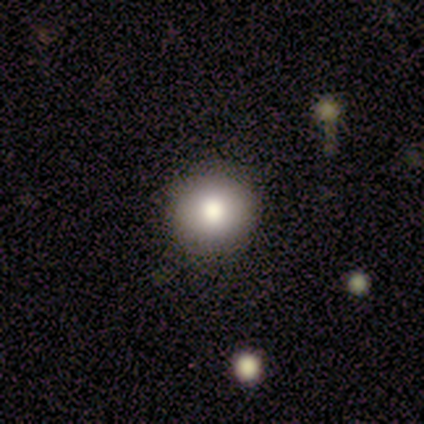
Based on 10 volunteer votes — A smooth galaxy with no disk features (70%) that is round (100%). Merging: none (88%).